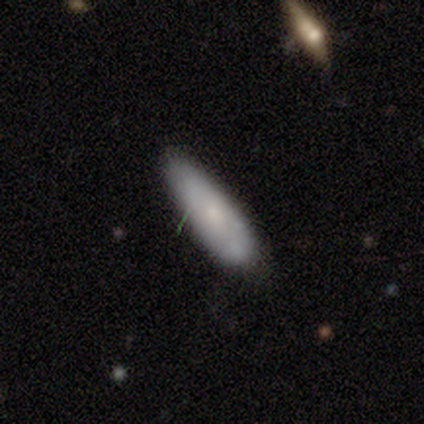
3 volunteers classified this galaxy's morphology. Smooth or featured: smooth — 100%
How rounded: in between — 67% (cigar-shaped — 33%)
Merging: none — 100%